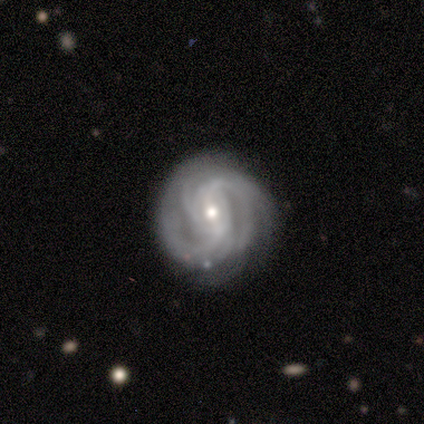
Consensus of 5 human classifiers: A featured or disk galaxy (100%) with a strong bar (40%, tied with weak), 3 (40%) medium (60%) spiral arms (100%) and a small central bulge (60%). Merging: none (100%).